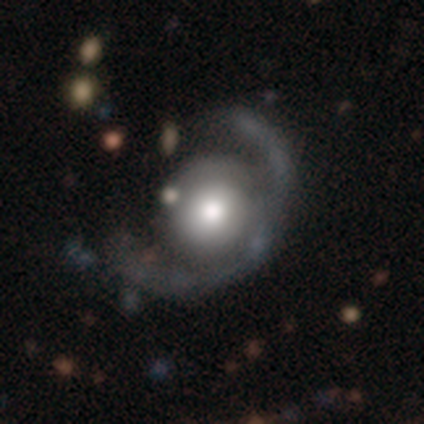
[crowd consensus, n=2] Smooth or featured?
  - featured or disk: 50% * (tied)
  - star or artifact: 50% * (tied)
  - smooth: 0%
Edge-on disk?
  - no: 100% *
  - yes: 0%
Bar?
  - no: 100% *
  - strong: 0%
  - weak: 0%
Spiral arms?
  - no: 100% *
  - yes: 0%
Bulge size?
  - large: 100% *
  - dominant: 0%
  - moderate: 0%
  - small: 0%
  - none: 0%
Merging?
  - major disturbance: 100% *
  - none: 0%
  - minor disturbance: 0%
  - merger: 0%